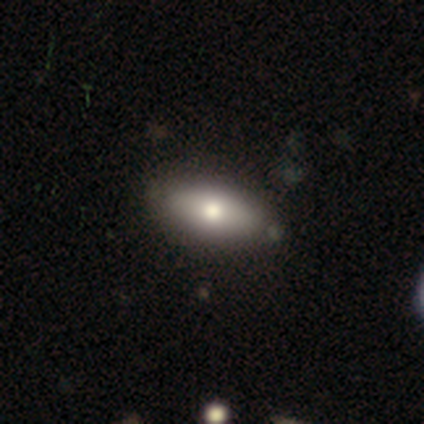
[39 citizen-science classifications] Smooth or featured?
  - smooth: 69% *
  - featured or disk: 26%
  - star or artifact: 5%
How rounded?
  - in between: 89% *
  - cigar-shaped: 11%
  - round: 0%
Merging?
  - none: 70% *
  - minor disturbance: 11%
  - major disturbance: 3%
  - merger: 3%